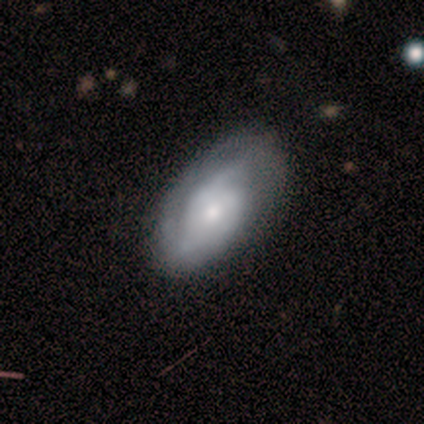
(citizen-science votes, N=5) smooth-or-featured: featured or disk: 80% | smooth: 20% | star or artifact: 0%
  disk-edge-on: no: 100% | yes: 0%
    bar: no: 75% | weak: 25% | strong: 0%
    has-spiral-arms: yes: 100% | no: 0%
      spiral-winding: tight: 50% (tied) | medium: 50% (tied) | loose: 0%
      spiral-arm-count: 2: 75% | can't tell: 25% | 1: 0% | 3: 0% | 4: 0% | more than 4: 0%
    bulge-size: small: 100% | dominant: 0% | large: 0% | moderate: 0% | none: 0%
  merging: none: 100% | minor disturbance: 0% | major disturbance: 0% | merger: 0%